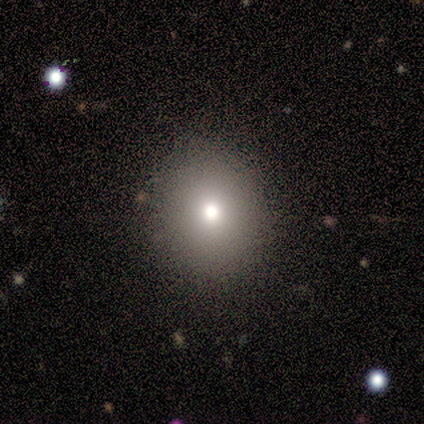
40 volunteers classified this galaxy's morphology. This is likely a smooth galaxy (72%). How rounded: likely round (79%). Merging: clearly none (91%).